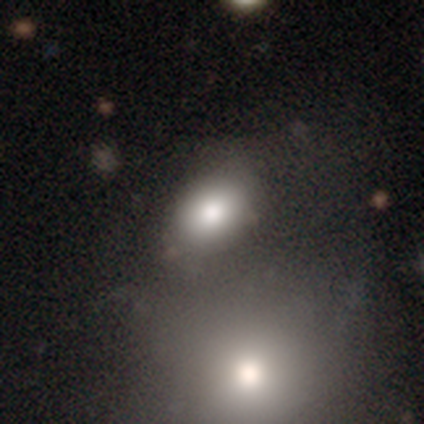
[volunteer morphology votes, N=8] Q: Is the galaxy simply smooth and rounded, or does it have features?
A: smooth — 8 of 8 (100%).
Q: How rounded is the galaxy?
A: in between — 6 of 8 (75%).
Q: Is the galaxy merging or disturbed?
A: none — 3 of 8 (38%, tied with minor disturbance).